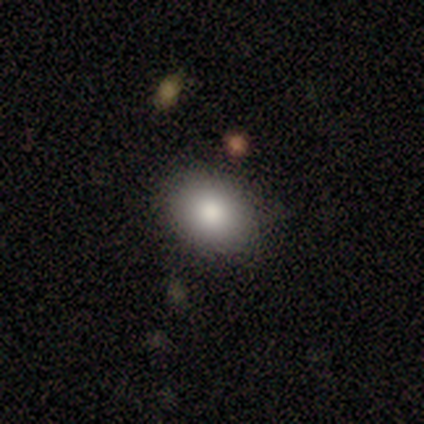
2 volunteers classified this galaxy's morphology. This appears to be a smooth galaxy with no disk features (100%) that is round (50%, tied with in between). Merging: none (100%).